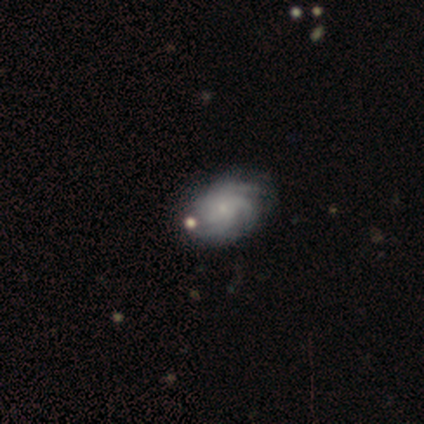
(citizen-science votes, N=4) featured or disk 75%, star or artifact 25%, smooth 0%. Down the decision tree: edge-on disk — no (100%); bar — no (100%); spiral arms — yes (100%); spiral arm count — 3 (33%, tied with 4 and can't tell); spiral winding — tight (67%); bulge size — small (67%); merging — none (100%).